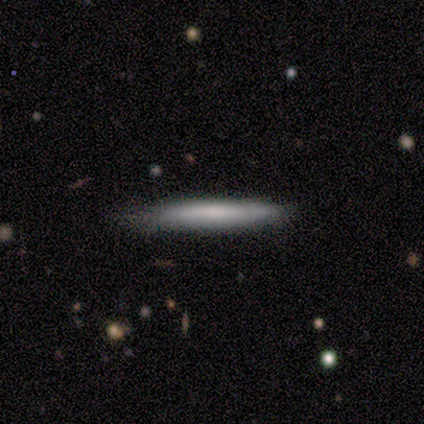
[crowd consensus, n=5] smooth 60%, featured or disk 40%, star or artifact 0%. Down the decision tree: how rounded — cigar-shaped (67%); merging — none (100%).